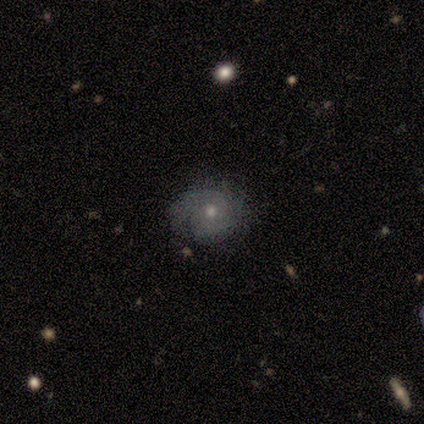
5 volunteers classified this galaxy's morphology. Smooth or featured?
  - featured or disk: 80% *
  - star or artifact: 20%
  - smooth: 0%
Edge-on disk?
  - no: 100% *
  - yes: 0%
Bar?
  - no: 100% *
  - strong: 0%
  - weak: 0%
Spiral arms?
  - yes: 75% *
  - no: 25%
Spiral winding?
  - medium: 67% *
  - tight: 33%
  - loose: 0%
Spiral arm count?
  - 1: 67% *
  - can't tell: 33%
  - 2: 0%
  - 3: 0%
  - 4: 0%
  - more than 4: 0%
Bulge size?
  - moderate: 50% * (tied)
  - small: 50% * (tied)
  - dominant: 0%
  - large: 0%
  - none: 0%
Merging?
  - none: 50% *
  - major disturbance: 25%
  - merger: 25%
  - minor disturbance: 0%